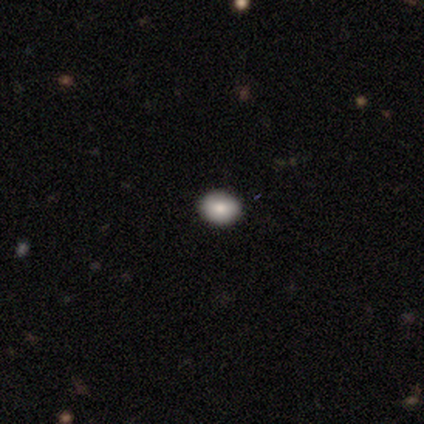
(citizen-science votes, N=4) Smooth or featured: smooth — 100%
How rounded: round — 100%
Merging: none — 100%